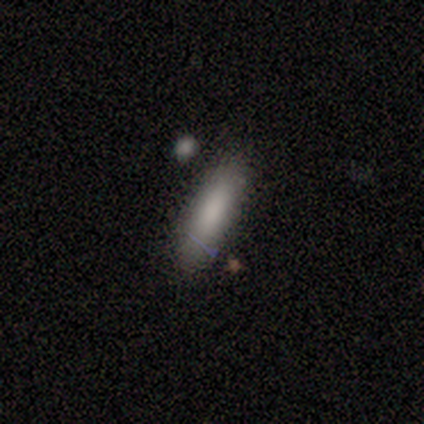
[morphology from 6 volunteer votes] smooth-or-featured: smooth: 100% | featured or disk: 0% | star or artifact: 0%
  how-rounded: cigar-shaped: 67% | in between: 33% | round: 0%
  merging: none: 67% | minor disturbance: 17% | merger: 17% | major disturbance: 0%